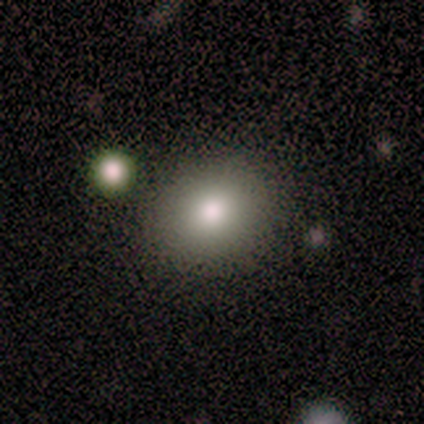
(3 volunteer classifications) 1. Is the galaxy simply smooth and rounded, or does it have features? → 67% smooth, 33% featured or disk, 0% star or artifact.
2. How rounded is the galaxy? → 100% in between, 0% round, 0% cigar-shaped.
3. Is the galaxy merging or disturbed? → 100% none, 0% minor disturbance, 0% major disturbance, 0% merger.